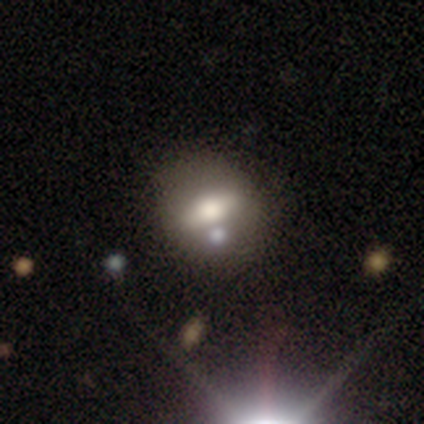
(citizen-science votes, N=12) A featured or disk galaxy (58%) with a weak bar (50%, tied with no), no spiral arms (100%) and a moderate central bulge (100%). Merging: none (73%).